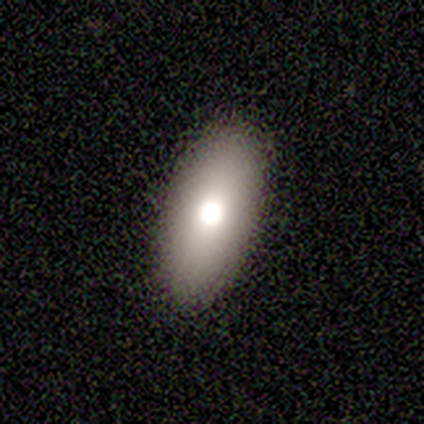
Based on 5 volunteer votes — A smooth galaxy with no disk features (60%) that is in between round and cigar-shaped (67%).

Vote fractions:
- Smooth or featured? smooth: 60% / featured or disk: 20% / star or artifact: 20%
- How rounded? in between: 67% / round: 33% / cigar-shaped: 0%
- Merging? none: 100% / minor disturbance: 0% / major disturbance: 0% / merger: 0%